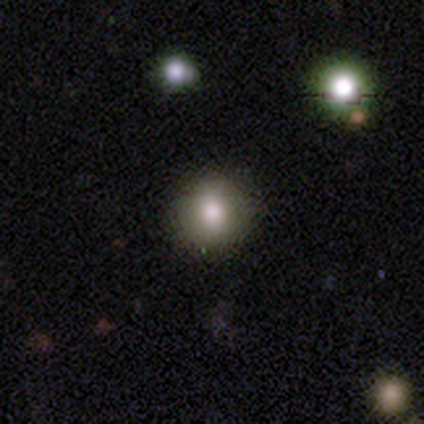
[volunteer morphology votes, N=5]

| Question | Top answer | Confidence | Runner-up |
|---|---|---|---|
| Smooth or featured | smooth | 100% | — |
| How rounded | round | 80% | cigar-shaped (20%) |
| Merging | none | 60% | minor disturbance (20%) |